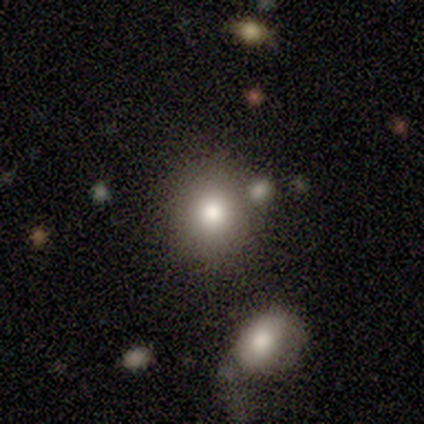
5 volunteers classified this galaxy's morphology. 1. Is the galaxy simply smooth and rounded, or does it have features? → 80% smooth, 20% featured or disk, 0% star or artifact.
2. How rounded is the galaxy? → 100% round, 0% in between, 0% cigar-shaped.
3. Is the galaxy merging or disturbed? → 40% none, 20% minor disturbance, 20% major disturbance, 20% merger.